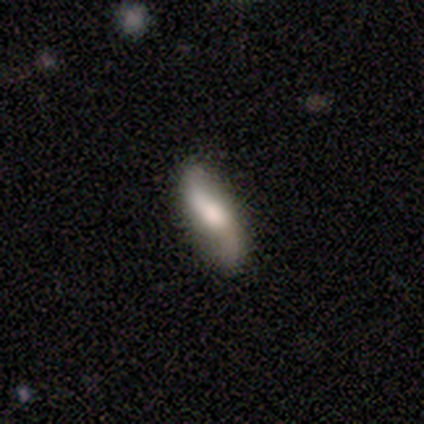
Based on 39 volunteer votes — Smooth or featured?
  - featured or disk: 64% *
  - smooth: 31%
  - star or artifact: 5%
Edge-on disk?
  - no: 76% *
  - yes: 24%
Bar?
  - no: 47% *
  - weak: 42%
  - strong: 11%
Spiral arms?
  - yes: 89% *
  - no: 11%
Spiral winding?
  - loose: 94% *
  - medium: 6%
  - tight: 0%
Spiral arm count?
  - 2: 100% *
  - 1: 0%
  - 3: 0%
  - 4: 0%
  - more than 4: 0%
  - can't tell: 0%
Bulge size?
  - large: 32% *
  - moderate: 26%
  - small: 21%
  - none: 16%
  - dominant: 5%
Merging?
  - none: 76% *
  - minor disturbance: 22%
  - merger: 3%
  - major disturbance: 0%